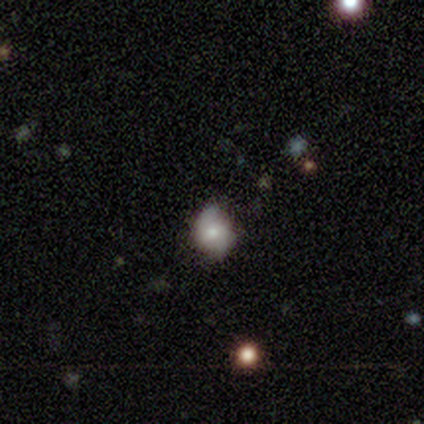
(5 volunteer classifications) This is clearly a smooth galaxy (100%). How rounded: likely round (60%). Merging: likely none (60%).